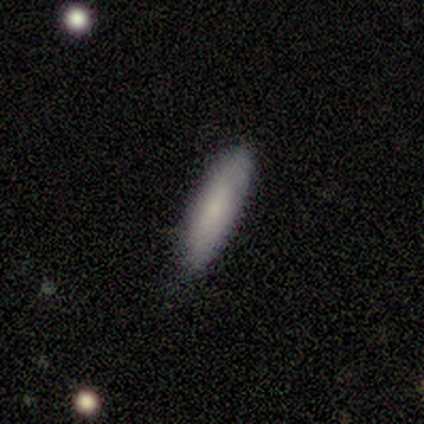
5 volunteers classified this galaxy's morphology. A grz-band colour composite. It shows a smooth galaxy with no disk features (80%) that is cigar-shaped (75%). Merging: none (80%).